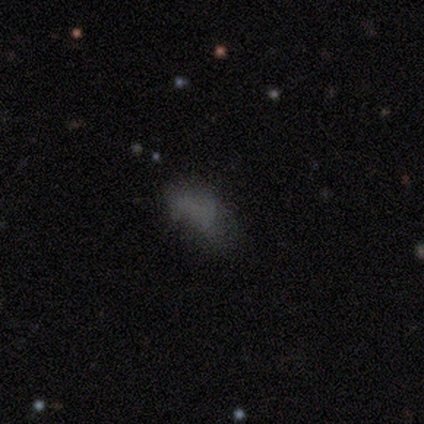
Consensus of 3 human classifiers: Morphology: type=smooth (100%); roundness=in between (67%); merging=none (33%, tied with minor disturbance and merger).